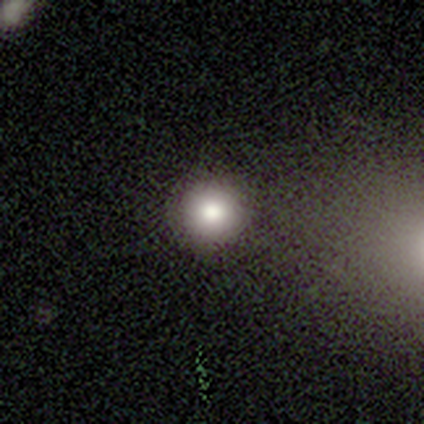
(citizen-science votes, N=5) Volunteers were most divided on "merging": none: 75%, minor disturbance: 25%, major disturbance: 0%, merger: 0%. More confident: how rounded — round (100%); smooth or featured — smooth (80%).